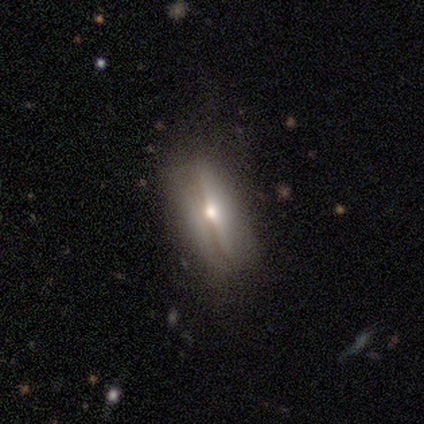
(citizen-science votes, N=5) Morphology: type=featured or disk (60%); edge-on=yes (67%); edge-on bulge=rounded (100%); merging=none (80%).